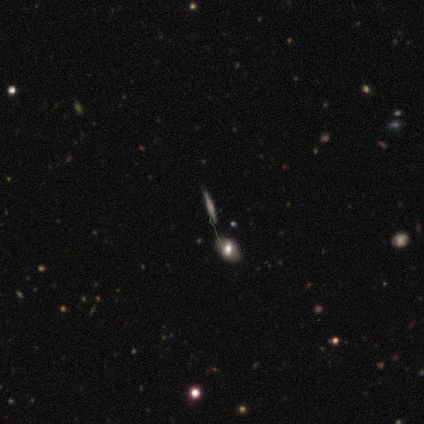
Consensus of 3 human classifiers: smooth_or_featured: featured or disk (p=0.67) [alt: smooth p=0.33]
disk_edge_on: yes (p=1.00)
edge_on_bulge: boxy (p=0.50) [tied with: none p=0.50]
merging: none (p=0.67) [alt: merger p=0.33]